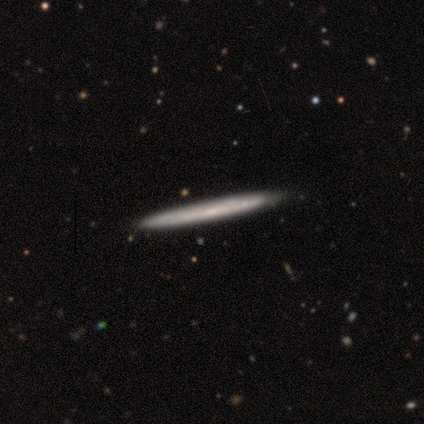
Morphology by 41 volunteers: smooth_or_featured: featured or disk (p=0.56) [alt: smooth p=0.41]
disk_edge_on: yes (p=0.91) [alt: no p=0.09]
edge_on_bulge: none (p=0.90) [alt: rounded p=0.10]
merging: none (p=0.65) [alt: minor disturbance p=0.03]